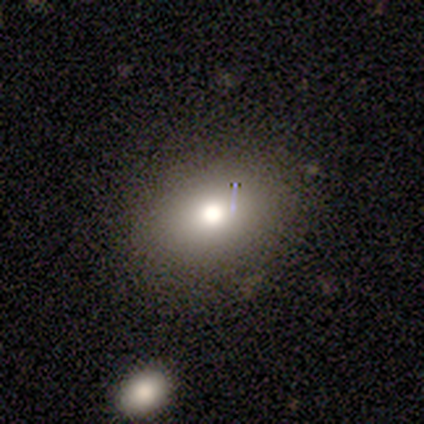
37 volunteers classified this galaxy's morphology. type=smooth (70%); roundness=in between (65%); merging=none (79%).